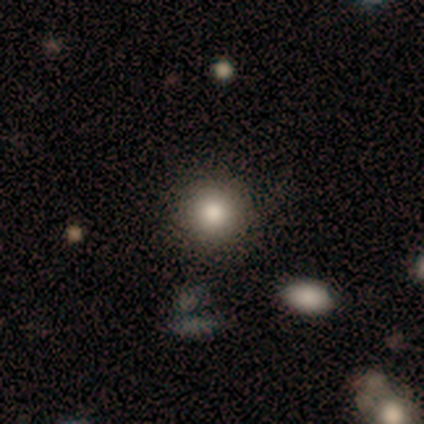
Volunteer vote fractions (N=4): A smooth galaxy with no disk features (75%) that is round (100%).

Vote fractions:
- Smooth or featured? smooth: 75% / featured or disk: 25% / star or artifact: 0%
- How rounded? round: 100% / in between: 0% / cigar-shaped: 0%
- Merging? none: 100% / minor disturbance: 0% / major disturbance: 0% / merger: 0%